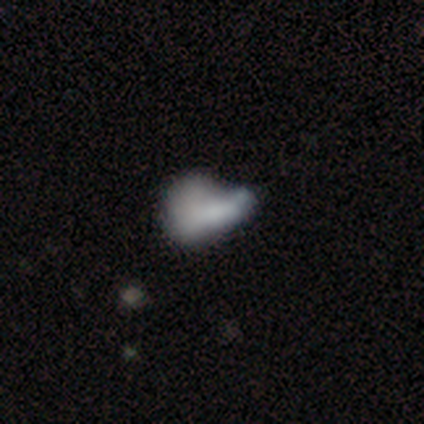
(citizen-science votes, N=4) Overall: smooth (50%, tied with featured or disk). How rounded: in between (100%). Merging: minor disturbance (50%; major disturbance 25%).